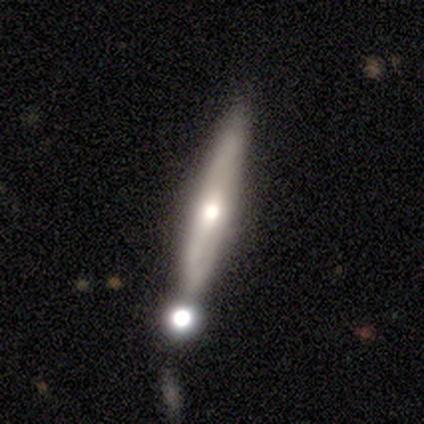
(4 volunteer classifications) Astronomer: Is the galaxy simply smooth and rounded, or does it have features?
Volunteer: featured or disk — 50%.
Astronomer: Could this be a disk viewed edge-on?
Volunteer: yes — 100%.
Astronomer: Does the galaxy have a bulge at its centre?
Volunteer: rounded — 100%.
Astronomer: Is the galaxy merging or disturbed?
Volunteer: merger — 67%.